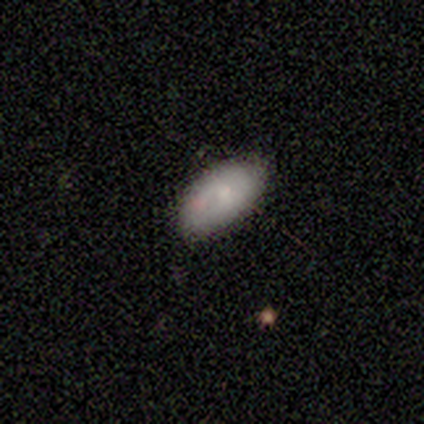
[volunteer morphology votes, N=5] Smooth or featured? smooth (80%)
How rounded? in between (100%)
Merging? none (100%)